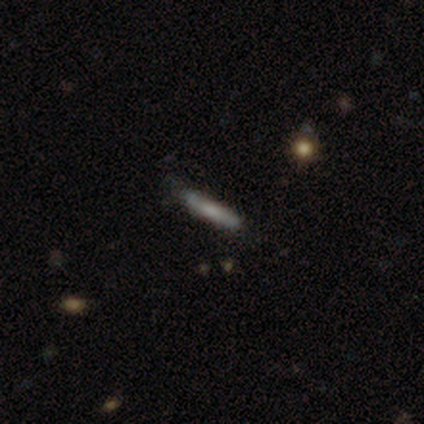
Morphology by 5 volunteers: Smooth or featured: smooth — 80% (featured or disk — 20%)
How rounded: cigar-shaped — 100%
Merging: none — 100%